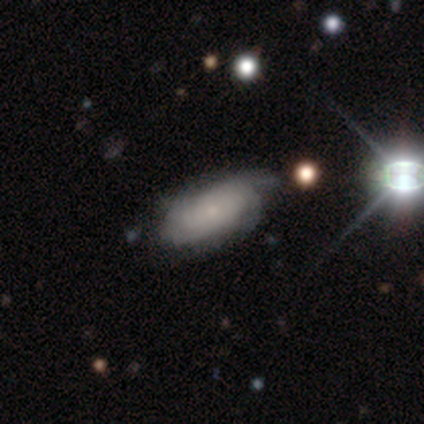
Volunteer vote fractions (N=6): Morphology: type=featured or disk (83%); edge-on=no (100%); bar=no (100%); spiral arms=yes (100%); winding=tight (60%); arm count=2 (40%, tied with can't tell); bulge=small (60%); merging=none (40%, tied with minor disturbance).